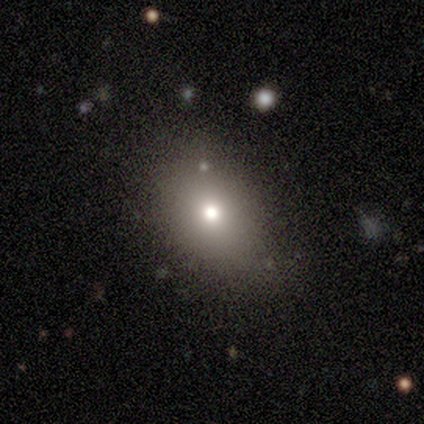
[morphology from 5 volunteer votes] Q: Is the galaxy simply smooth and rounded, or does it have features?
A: featured or disk — 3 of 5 (60%).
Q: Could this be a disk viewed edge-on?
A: no — 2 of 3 (67%).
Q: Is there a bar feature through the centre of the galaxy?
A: no — 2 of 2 (100%).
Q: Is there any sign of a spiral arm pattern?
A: no — 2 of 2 (100%).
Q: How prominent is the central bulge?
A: small — 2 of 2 (100%).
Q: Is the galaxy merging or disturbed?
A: none — 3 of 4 (75%).